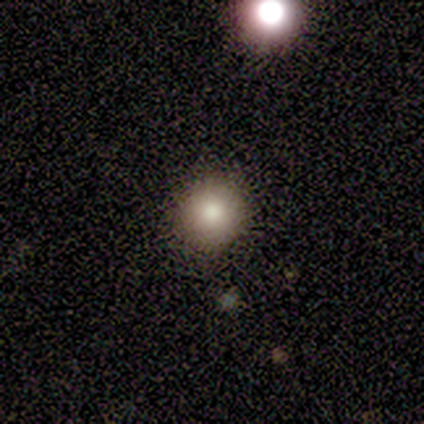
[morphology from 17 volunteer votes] smooth_or_featured: smooth (p=0.71) [alt: featured or disk p=0.18]
how_rounded: round (p=0.92) [alt: in between p=0.08]
merging: none (p=0.93) [alt: minor disturbance p=0.07]